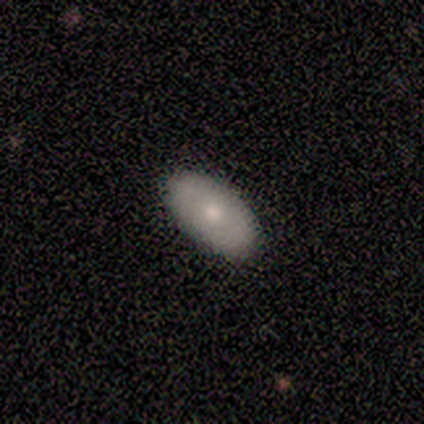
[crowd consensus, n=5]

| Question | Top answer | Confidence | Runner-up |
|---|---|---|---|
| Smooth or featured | smooth | 80% | featured or disk (20%) |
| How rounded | in between | 100% | — |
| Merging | none | 100% | — |